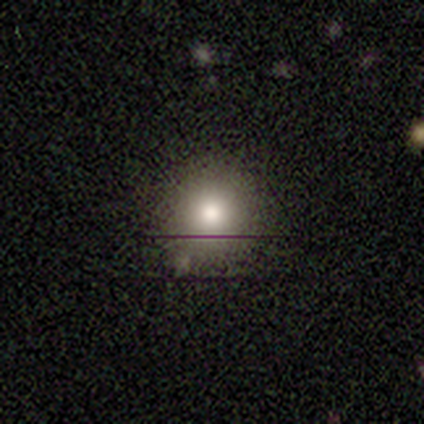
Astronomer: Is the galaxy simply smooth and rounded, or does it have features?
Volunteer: smooth — 80%.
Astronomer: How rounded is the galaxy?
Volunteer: round — 100%.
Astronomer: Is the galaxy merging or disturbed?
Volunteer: minor disturbance — 60% (runner-up: none, 40%).